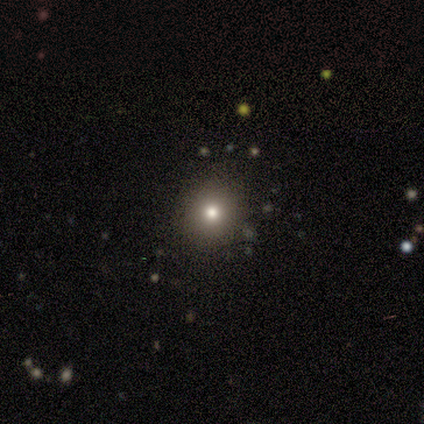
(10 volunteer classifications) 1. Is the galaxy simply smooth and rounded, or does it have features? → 90% smooth, 10% star or artifact, 0% featured or disk.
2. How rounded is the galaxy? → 78% round, 22% in between, 0% cigar-shaped.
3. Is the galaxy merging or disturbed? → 78% none, 22% minor disturbance, 0% major disturbance, 0% merger.